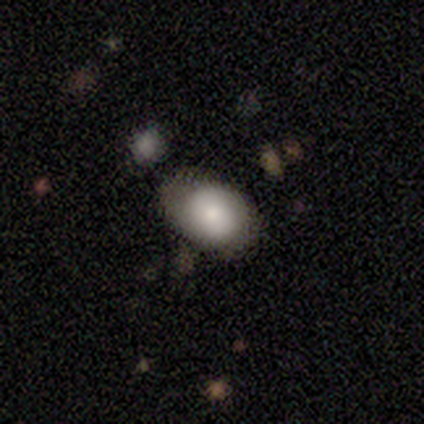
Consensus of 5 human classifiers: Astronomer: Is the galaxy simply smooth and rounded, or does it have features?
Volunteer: smooth — 80%.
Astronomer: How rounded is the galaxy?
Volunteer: in between — 75%.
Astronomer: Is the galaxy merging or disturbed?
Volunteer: none — 60%.